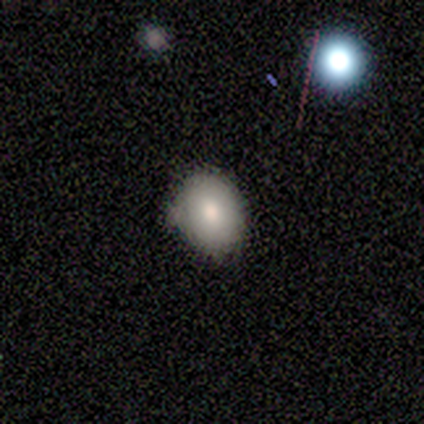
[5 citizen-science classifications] This is likely a smooth galaxy (60%). How rounded: likely round (67%). Merging: likely none (67%).